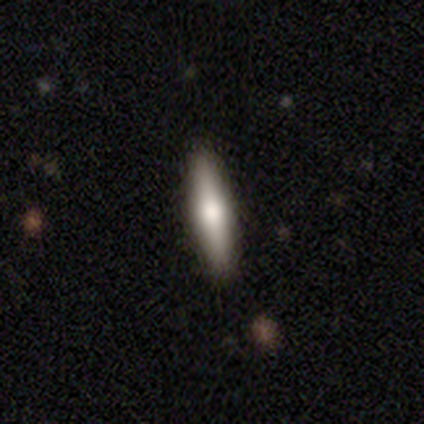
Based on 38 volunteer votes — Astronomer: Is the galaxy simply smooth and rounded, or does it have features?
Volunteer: smooth — 50%, tied with featured or disk at 50%.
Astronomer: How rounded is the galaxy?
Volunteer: cigar-shaped — 74%.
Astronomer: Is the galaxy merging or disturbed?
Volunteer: none — 66%.